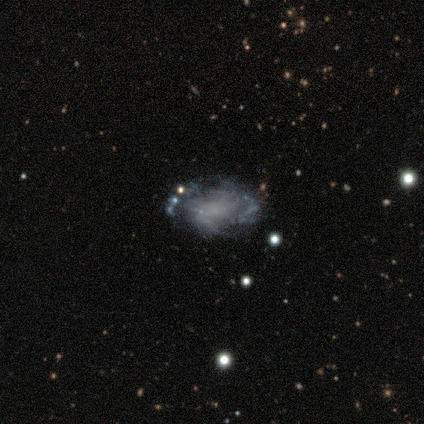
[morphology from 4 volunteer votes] featured or disk 100%, smooth 0%, star or artifact 0%. Down the decision tree: edge-on disk — no (100%); bar — no (75%); spiral arms — no (75%); bulge size — none (75%); merging — minor disturbance (50%).